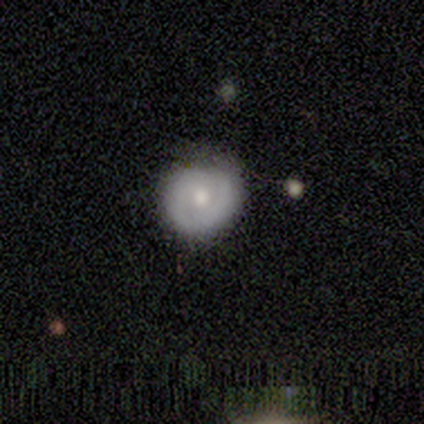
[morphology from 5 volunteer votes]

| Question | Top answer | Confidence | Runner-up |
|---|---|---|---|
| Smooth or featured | smooth | 40% | tied: featured or disk (40%) |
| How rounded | round | 50% | tied: in between (50%) |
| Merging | none | 100% | — |